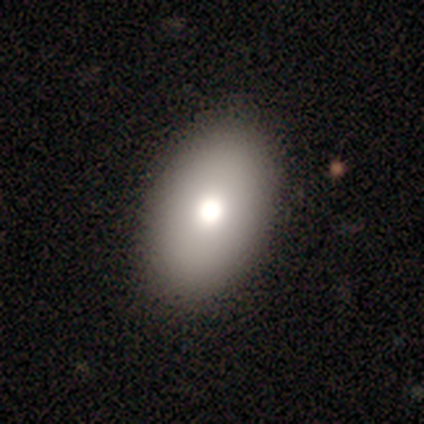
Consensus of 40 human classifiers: Overall: smooth (80%). How rounded: in between (97%). Merging: none (78%).